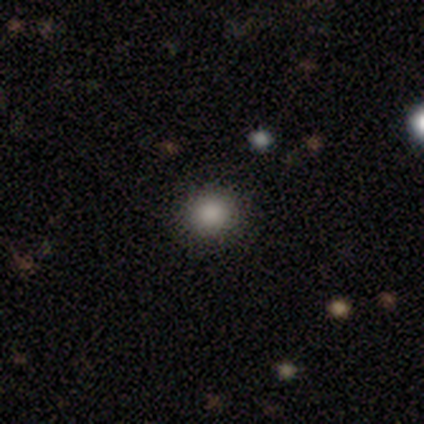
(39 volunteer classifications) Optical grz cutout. It shows a smooth galaxy with no disk features (79%) that is round (94%). Merging: none (97%).